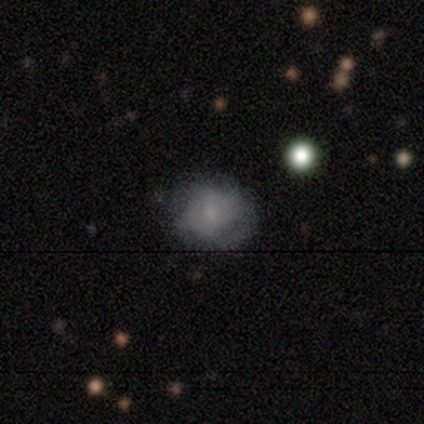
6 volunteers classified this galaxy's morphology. Smooth or featured? 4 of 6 (67%) said smooth. How rounded? 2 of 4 (50%, tied with in between) said round. Merging? 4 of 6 (67%) said none.